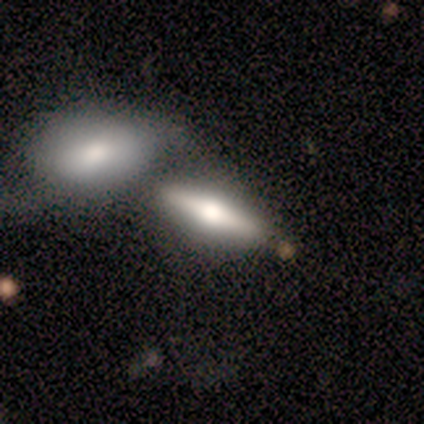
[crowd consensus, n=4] Volunteers were most divided on "smooth or featured": featured or disk: 75%, smooth: 25%, star or artifact: 0%. More confident: edge-on disk — yes (100%); edge-on bulge — rounded (100%); merging — merger (75%).